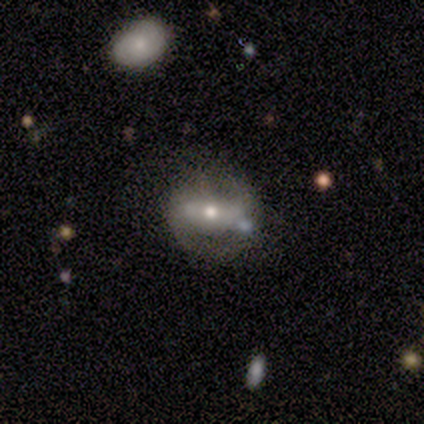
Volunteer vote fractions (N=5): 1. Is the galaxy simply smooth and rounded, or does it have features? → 60% smooth, 40% featured or disk, 0% star or artifact.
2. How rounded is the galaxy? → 67% in between, 33% round, 0% cigar-shaped.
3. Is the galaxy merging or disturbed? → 60% none, 20% minor disturbance, 20% merger, 0% major disturbance.